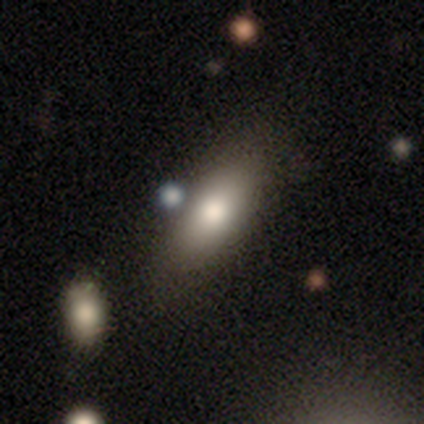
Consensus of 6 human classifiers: A smooth galaxy with no disk features (100%) that is in between round and cigar-shaped (83%). Merging: none (67%).